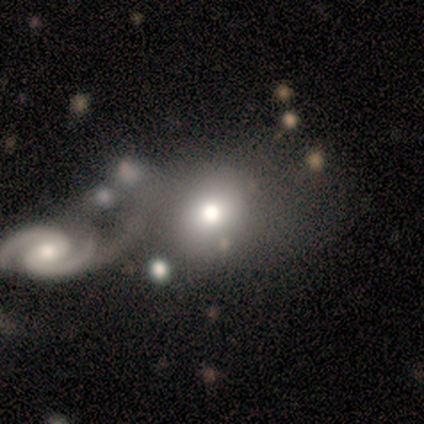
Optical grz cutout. It shows a smooth galaxy with no disk features (60%) that is round (100%). Merging: merger (75%).